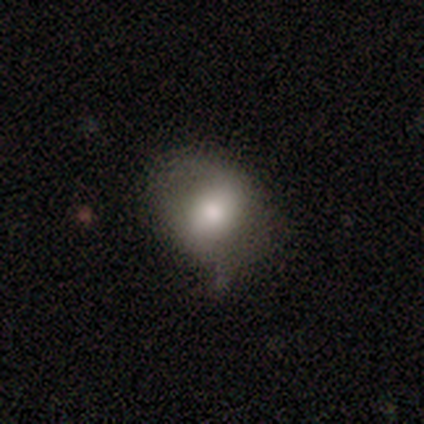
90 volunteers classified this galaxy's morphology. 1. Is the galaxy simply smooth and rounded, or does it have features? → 63% smooth, 27% featured or disk, 10% star or artifact.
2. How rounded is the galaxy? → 51% round, 49% in between, 0% cigar-shaped.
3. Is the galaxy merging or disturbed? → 53% none, 35% minor disturbance, 11% major disturbance, 1% merger.